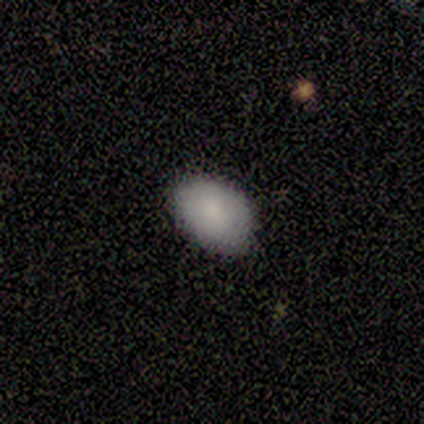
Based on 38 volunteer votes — Smooth or featured? smooth (84%)
How rounded? in between (84%)
Merging? none (88%)